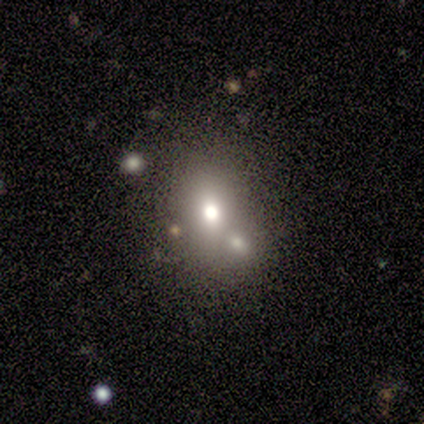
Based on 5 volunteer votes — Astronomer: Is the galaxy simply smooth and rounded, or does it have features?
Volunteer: smooth — 60%.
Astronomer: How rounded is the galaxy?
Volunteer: round — 67%.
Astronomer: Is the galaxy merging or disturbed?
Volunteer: none — 50%, tied with minor disturbance at 50%.